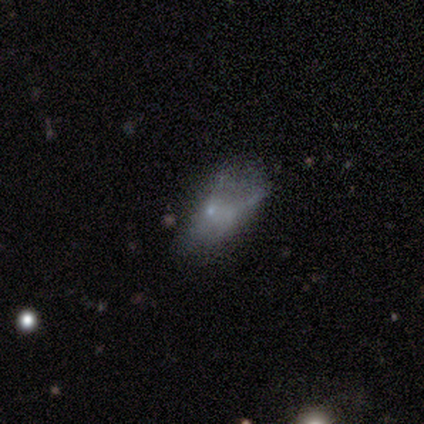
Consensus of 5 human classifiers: Smooth or featured: smooth — 40% (tied with star or artifact — 40%)
How rounded: in between — 100%
Merging: minor disturbance — 67% (none — 33%)